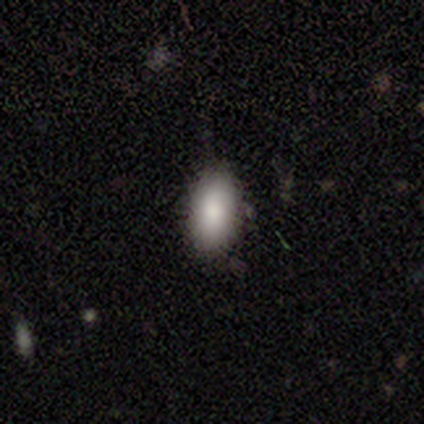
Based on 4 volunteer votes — Q: Smooth or featured?
A: smooth (100%)
Q: How rounded?
A: in between (100%)
Q: Merging?
A: none (100%)